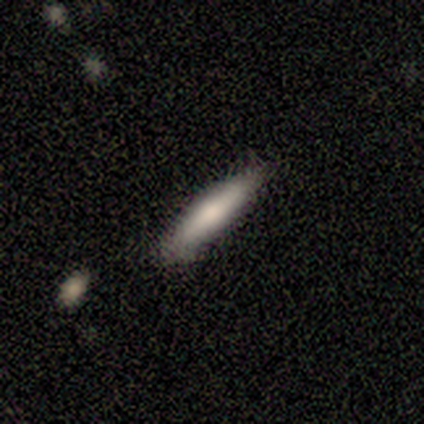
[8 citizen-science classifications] This appears to be a featured or disk galaxy (50%) viewed edge-on (50%, tied with no) with no central bulge (100%). Merging: none (86%).